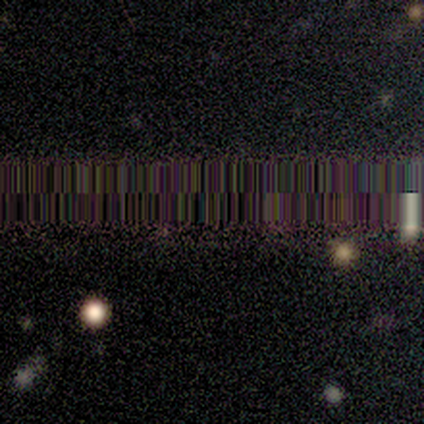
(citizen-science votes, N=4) This is clearly a star or artifact rather than a galaxy (100%).